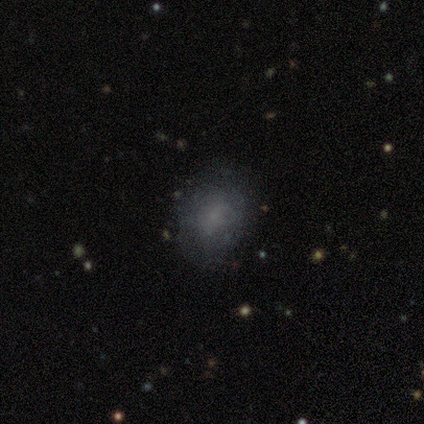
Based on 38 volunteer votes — A smooth galaxy with no disk features (66%) that is in between round and cigar-shaped (60%). Merging: none (74%).